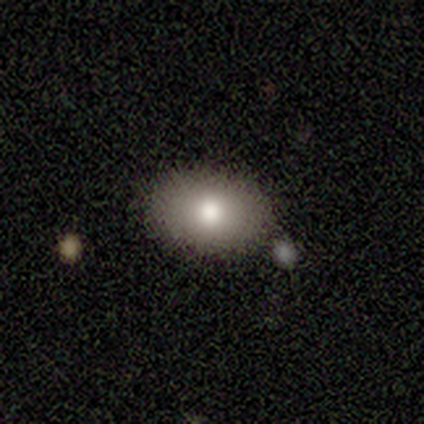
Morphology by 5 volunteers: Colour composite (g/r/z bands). It shows a smooth galaxy with no disk features (80%) that is in between round and cigar-shaped (100%). Merging: none (100%).